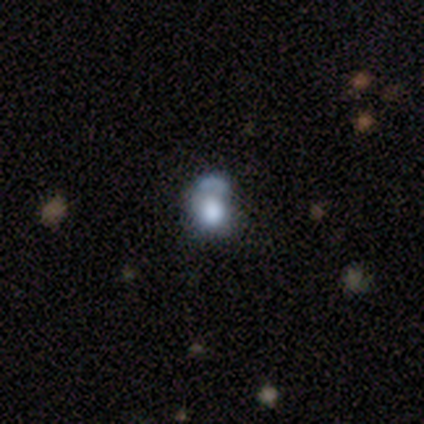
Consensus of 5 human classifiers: Smooth or featured: smooth — 100%
How rounded: in between — 60% (round — 40%)
Merging: minor disturbance — 40% (none — 20%)